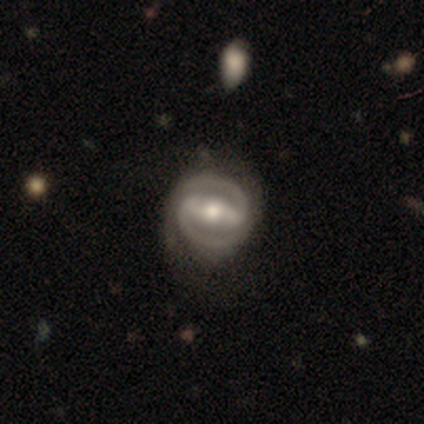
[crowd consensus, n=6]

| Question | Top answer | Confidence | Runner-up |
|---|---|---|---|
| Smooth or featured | featured or disk | 100% | — |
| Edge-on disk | no | 100% | — |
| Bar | strong | 67% | weak (17%) |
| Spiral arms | yes | 100% | — |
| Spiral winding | tight | 50% | tied: medium (50%) |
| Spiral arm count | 2 | 100% | — |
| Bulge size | moderate | 100% | — |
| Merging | none | 83% | minor disturbance (17%) |